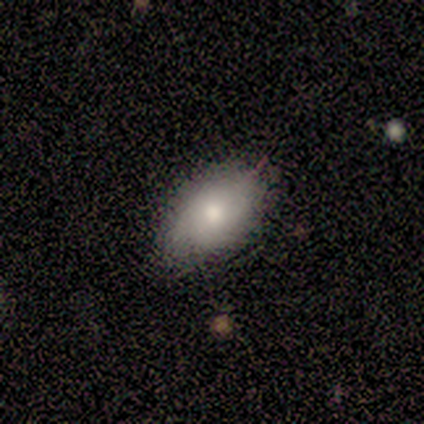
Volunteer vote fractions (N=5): smooth-or-featured: smooth: 80% | star or artifact: 20% | featured or disk: 0%
  how-rounded: in between: 100% | round: 0% | cigar-shaped: 0%
  merging: none: 75% | minor disturbance: 25% | major disturbance: 0% | merger: 0%